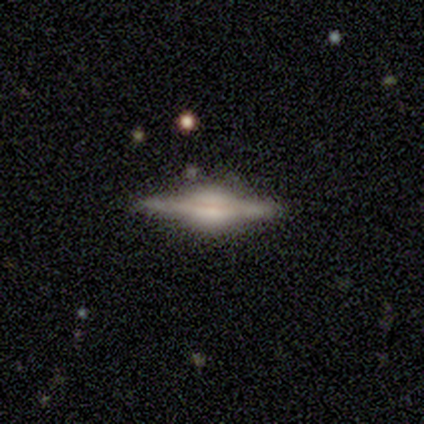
Morphology: type=featured or disk (88%); edge-on=yes (97%); edge-on bulge=rounded (100%); merging=none (84%).